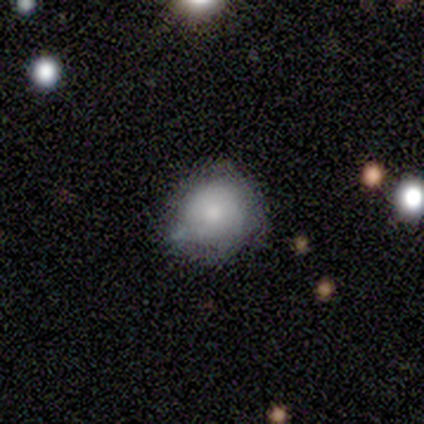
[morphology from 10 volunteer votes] Smooth or featured?
  - smooth: 60% *
  - star or artifact: 30%
  - featured or disk: 10%
How rounded?
  - round: 83% *
  - in between: 17%
  - cigar-shaped: 0%
Merging?
  - none: 57% *
  - minor disturbance: 43%
  - major disturbance: 0%
  - merger: 0%